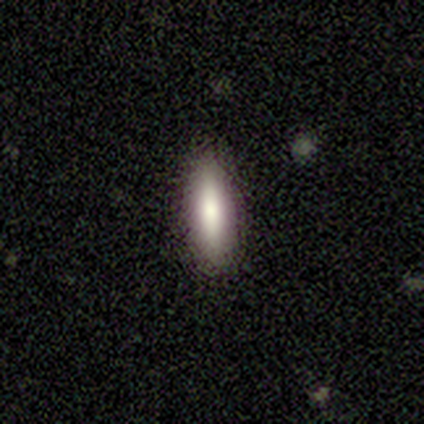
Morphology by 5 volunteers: smooth-or-featured: smooth: 100% | featured or disk: 0% | star or artifact: 0%
  how-rounded: cigar-shaped: 60% | in between: 40% | round: 0%
  merging: none: 80% | minor disturbance: 20% | major disturbance: 0% | merger: 0%